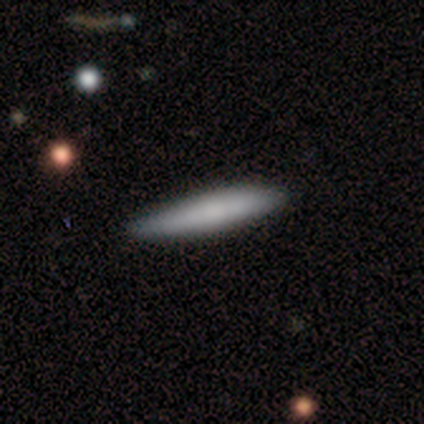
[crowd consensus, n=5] This appears to be a smooth galaxy with no disk features (80%) that is cigar-shaped (75%). Merging: none (100%).